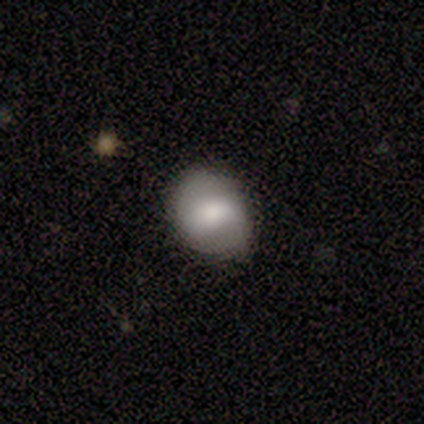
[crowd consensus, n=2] Overall: smooth (100%). How rounded: round (100%). Merging: none (50%, tied with major disturbance).